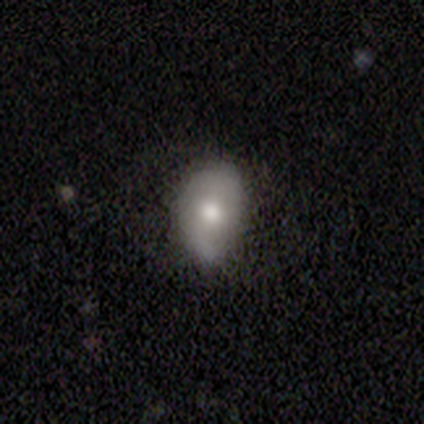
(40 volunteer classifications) smooth_or_featured: smooth (p=0.68) [alt: featured or disk p=0.30]
how_rounded: in between (p=0.81) [alt: round p=0.15]
merging: none (p=0.54) [alt: minor disturbance p=0.44]